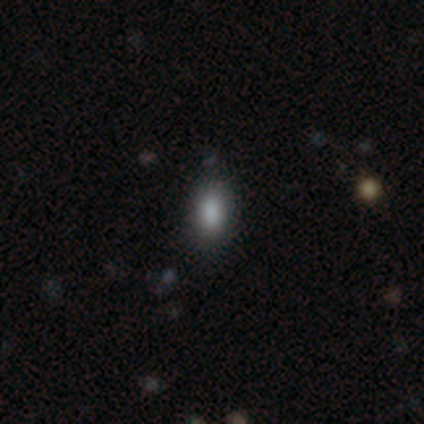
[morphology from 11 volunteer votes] This appears to be a smooth galaxy with no disk features (100%) that is in between round and cigar-shaped (91%). Merging: none (91%).